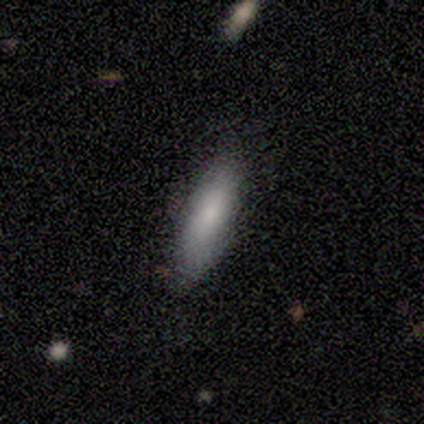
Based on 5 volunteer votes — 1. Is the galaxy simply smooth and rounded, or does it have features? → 80% smooth, 20% featured or disk, 0% star or artifact.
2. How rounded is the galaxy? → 75% in between, 25% cigar-shaped, 0% round.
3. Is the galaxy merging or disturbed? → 60% none, 40% minor disturbance, 0% major disturbance, 0% merger.